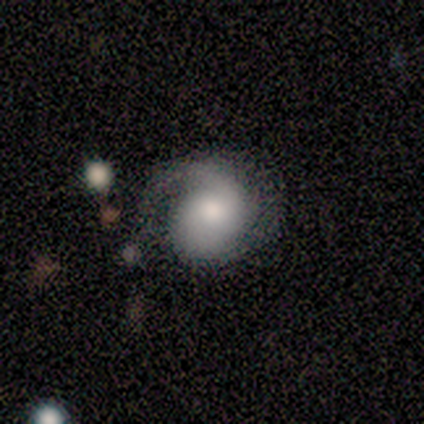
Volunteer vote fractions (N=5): smooth-or-featured: smooth: 60% | featured or disk: 40% | star or artifact: 0%
  how-rounded: round: 67% | in between: 33% | cigar-shaped: 0%
  merging: none: 40% (tied) | major disturbance: 40% (tied) | minor disturbance: 20% | merger: 0%